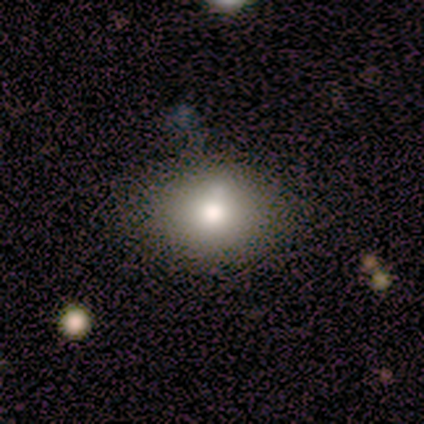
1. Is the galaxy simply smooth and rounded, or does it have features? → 80% smooth, 20% star or artifact, 0% featured or disk.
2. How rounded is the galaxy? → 75% in between, 25% round, 0% cigar-shaped.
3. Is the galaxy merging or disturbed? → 100% none, 0% minor disturbance, 0% major disturbance, 0% merger.